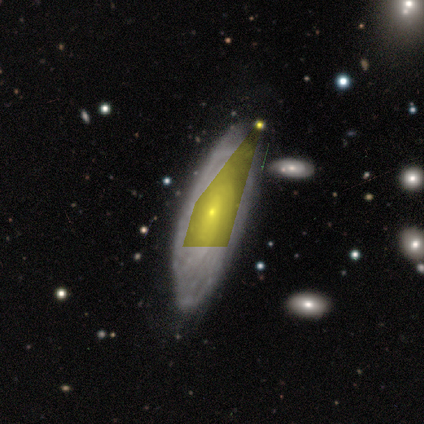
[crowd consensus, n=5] Smooth or featured?
  - featured or disk: 80% *
  - star or artifact: 20%
  - smooth: 0%
Edge-on disk?
  - no: 100% *
  - yes: 0%
Bar?
  - no: 75% *
  - weak: 25%
  - strong: 0%
Spiral arms?
  - yes: 100% *
  - no: 0%
Spiral winding?
  - tight: 75% *
  - medium: 25%
  - loose: 0%
Spiral arm count?
  - more than 4: 50% * (tied)
  - can't tell: 50% * (tied)
  - 1: 0%
  - 2: 0%
  - 3: 0%
  - 4: 0%
Bulge size?
  - small: 75% *
  - moderate: 25%
  - dominant: 0%
  - large: 0%
  - none: 0%
Merging?
  - none: 100% *
  - minor disturbance: 0%
  - major disturbance: 0%
  - merger: 0%